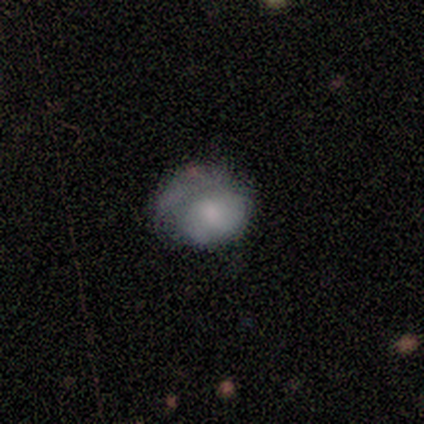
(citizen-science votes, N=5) Smooth or featured?
  - smooth: 80% *
  - star or artifact: 20%
  - featured or disk: 0%
How rounded?
  - round: 50% * (tied)
  - in between: 50% * (tied)
  - cigar-shaped: 0%
Merging?
  - none: 75% *
  - minor disturbance: 25%
  - major disturbance: 0%
  - merger: 0%